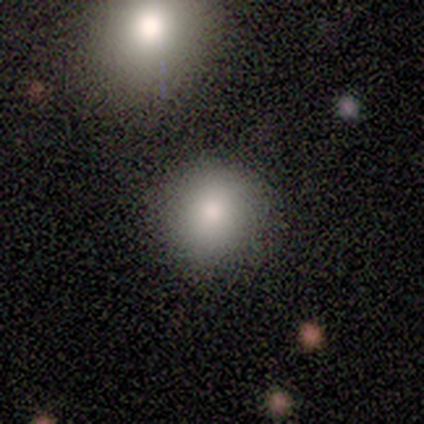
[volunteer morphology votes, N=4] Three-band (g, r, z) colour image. It shows a smooth galaxy with no disk features (100%) that is round (75%). Merging: minor disturbance (50%).